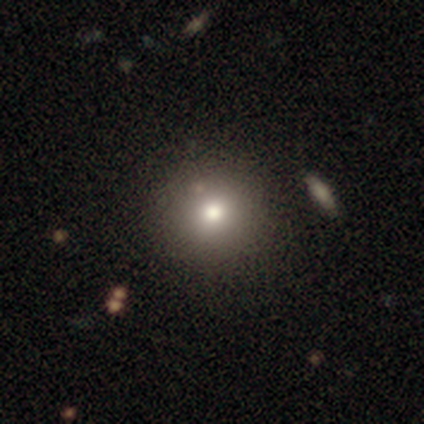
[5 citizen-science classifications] smooth-or-featured: smooth: 80% | featured or disk: 20% | star or artifact: 0%
  how-rounded: round: 100% | in between: 0% | cigar-shaped: 0%
  merging: none: 100% | minor disturbance: 0% | major disturbance: 0% | merger: 0%